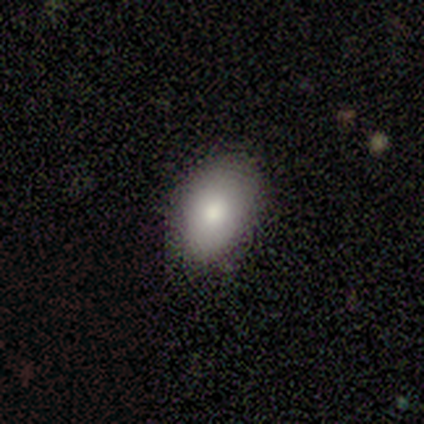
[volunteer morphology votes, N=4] smooth-or-featured: smooth: 100% | featured or disk: 0% | star or artifact: 0%
  how-rounded: in between: 100% | round: 0% | cigar-shaped: 0%
  merging: none: 100% | minor disturbance: 0% | major disturbance: 0% | merger: 0%